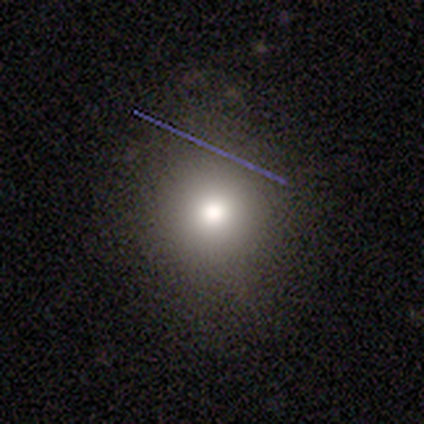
Overall: smooth (73%). How rounded: round (89%). Merging: none (86%).